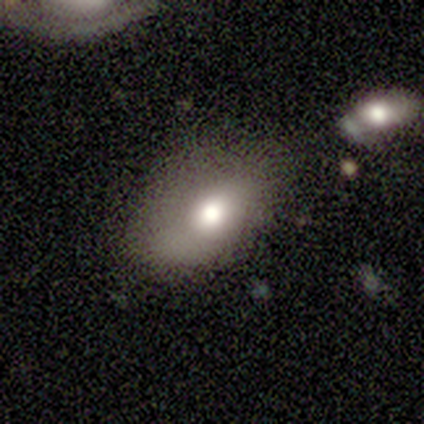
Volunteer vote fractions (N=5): smooth 60%, featured or disk 20%, star or artifact 20%. Down the decision tree: how rounded — in between (100%); merging — none (75%).